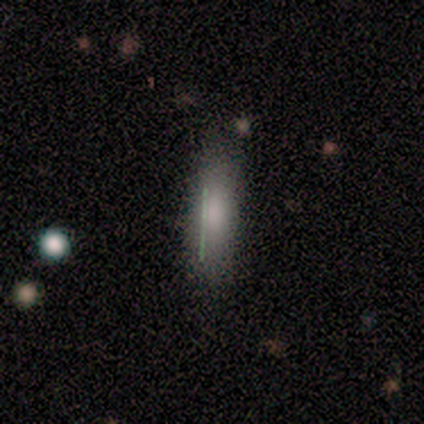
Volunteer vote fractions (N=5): Volunteers were most divided on "smooth or featured": smooth: 80%, featured or disk: 20%, star or artifact: 0%. More confident: how rounded — cigar-shaped (100%); merging — none (80%).